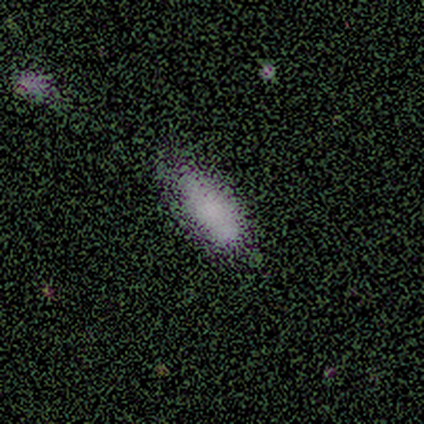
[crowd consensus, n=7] Overall: smooth (86%). How rounded: in between (67%; cigar-shaped 33%). Merging: minor disturbance (67%).